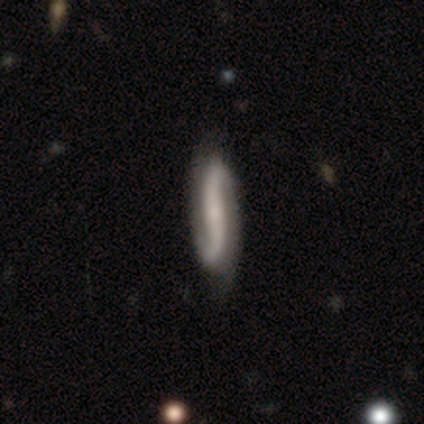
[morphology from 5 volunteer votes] This appears to be a featured or disk galaxy (60%) with a strong bar (100%), 2 (100%) loose (67%) spiral arms (100%) and no central bulge (67%). Merging: none (60%).